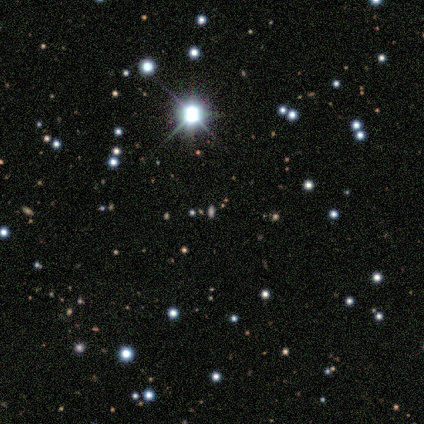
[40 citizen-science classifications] Q: Smooth or featured?
A: star or artifact (68%); runner-up: smooth (30%)